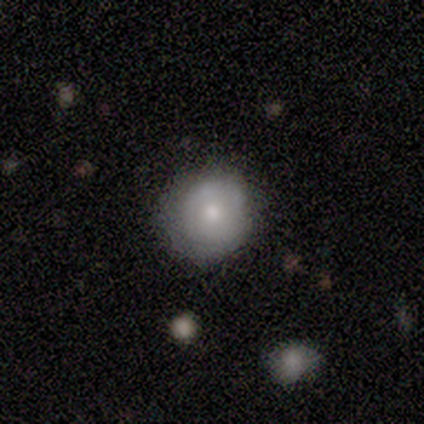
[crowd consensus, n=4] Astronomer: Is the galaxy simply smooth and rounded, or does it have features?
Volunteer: smooth — 75%.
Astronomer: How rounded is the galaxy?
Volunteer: round — 100%.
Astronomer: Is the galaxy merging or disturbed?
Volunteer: none — 75%.